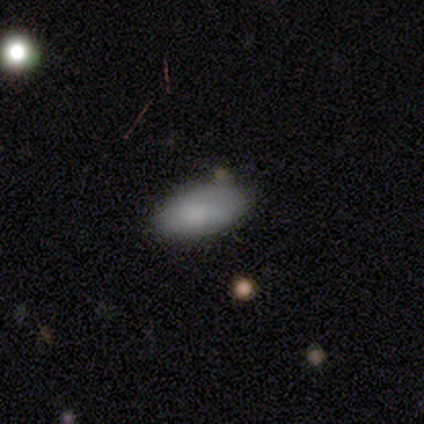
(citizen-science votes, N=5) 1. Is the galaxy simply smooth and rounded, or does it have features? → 60% smooth, 20% featured or disk, 20% star or artifact.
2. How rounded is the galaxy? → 100% in between, 0% round, 0% cigar-shaped.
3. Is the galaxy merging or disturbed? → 75% minor disturbance, 25% none, 0% major disturbance, 0% merger.